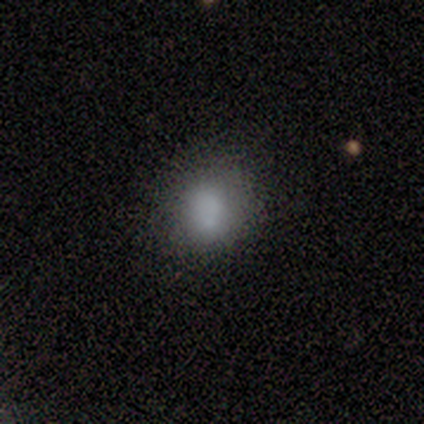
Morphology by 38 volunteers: type=smooth (79%); roundness=round (70%); merging=none (79%).